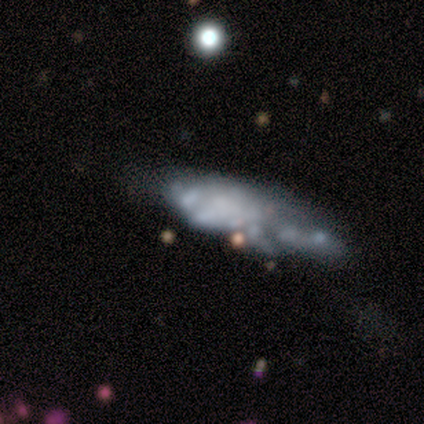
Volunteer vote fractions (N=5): Smooth or featured: featured or disk — 80% (smooth — 20%)
Edge-on disk: no — 100%
Bar: no — 100%
Spiral arms: no — 100%
Bulge size: none — 50% (dominant — 25%)
Merging: none — 60% (minor disturbance — 40%)